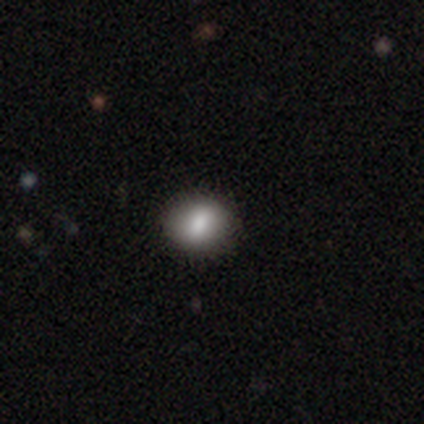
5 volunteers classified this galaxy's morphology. Smooth or featured: smooth — 60% (featured or disk — 20%)
How rounded: round — 100%
Merging: none — 100%